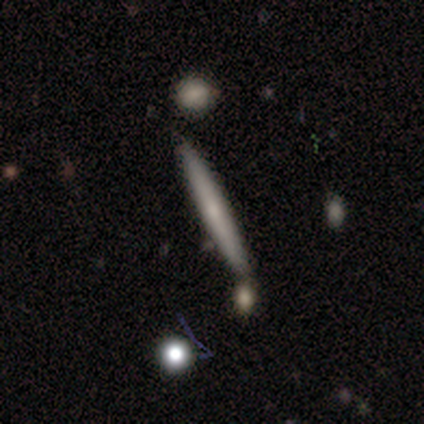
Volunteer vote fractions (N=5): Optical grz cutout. It shows a smooth galaxy with no disk features (60%) that is cigar-shaped (100%). Merging: none (60%).